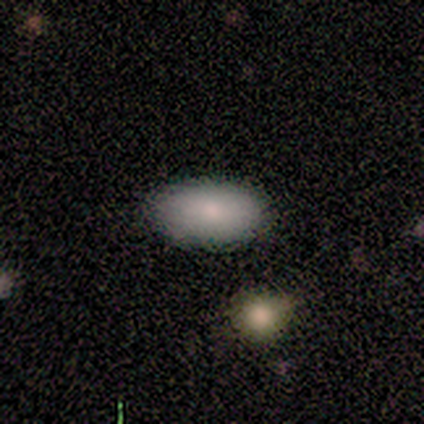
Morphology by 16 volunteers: smooth-or-featured: smooth: 81% | featured or disk: 19% | star or artifact: 0%
  how-rounded: in between: 92% | round: 8% | cigar-shaped: 0%
  merging: none: 88% | major disturbance: 12% | minor disturbance: 0% | merger: 0%